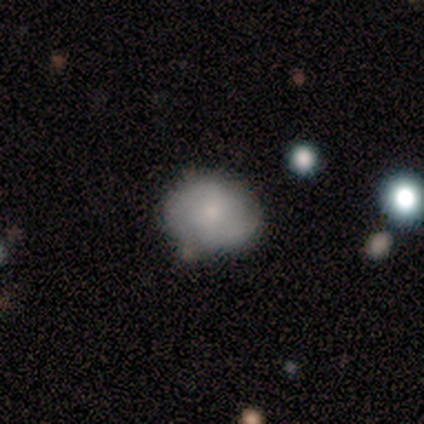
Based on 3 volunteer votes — smooth_or_featured: featured or disk (p=0.67) [alt: smooth p=0.33]
disk_edge_on: no (p=1.00)
bar: no (p=1.00)
has_spiral_arms: yes (p=0.50) [tied with: no p=0.50]
spiral_winding: tight (p=1.00)
spiral_arm_count: 2 (p=1.00)
bulge_size: moderate (p=0.50) [tied with: none p=0.50]
merging: none (p=0.67) [alt: major disturbance p=0.33]